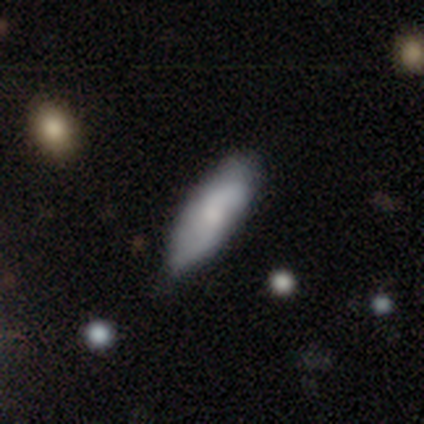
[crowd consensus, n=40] This is possibly a featured or disk galaxy (50%). It is likely not viewed edge-on (70%). Bar: likely no (79%). Spiral arm pattern: clearly yes (86%). Spiral arm count: likely 2 (75%). Spiral winding: possibly tight (50%). Central bulge: marginally small (43%). Merging: marginally minor disturbance (28%).